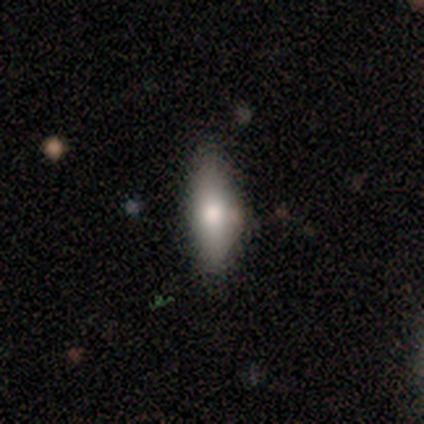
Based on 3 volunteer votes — A featured or disk galaxy (67%) viewed edge-on (100%) with a rounded central bulge (100%). Merging: none (100%).